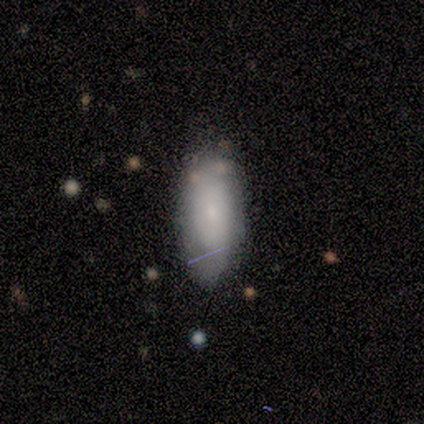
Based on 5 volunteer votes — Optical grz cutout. It shows a smooth galaxy with no disk features (80%) that is in between round and cigar-shaped (100%). Merging: none (60%).